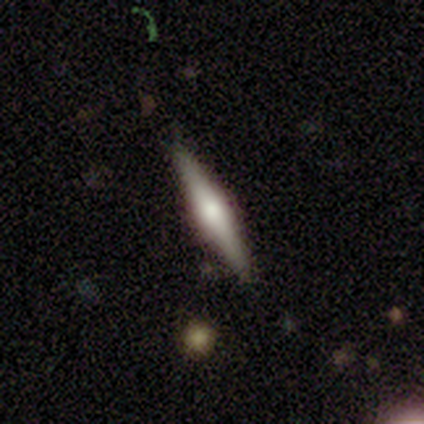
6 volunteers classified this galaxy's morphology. This appears to be a featured or disk galaxy (50%) viewed edge-on (100%) with a rounded central bulge (67%). Merging: none (100%).